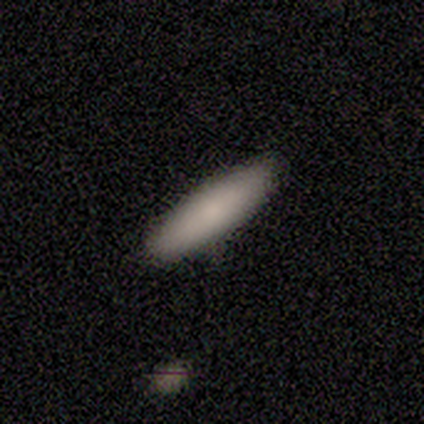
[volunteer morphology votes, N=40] smooth_or_featured: smooth (p=0.90) [alt: featured or disk p=0.10]
how_rounded: in between (p=0.50) [tied with: cigar-shaped p=0.50]
merging: none (p=0.57) [alt: minor disturbance p=0.07]